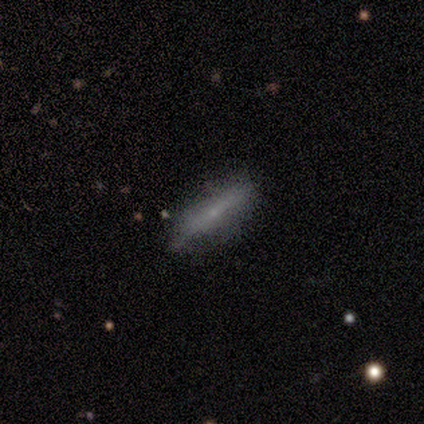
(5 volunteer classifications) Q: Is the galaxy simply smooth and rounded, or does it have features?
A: smooth — 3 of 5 (60%).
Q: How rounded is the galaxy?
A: cigar-shaped — 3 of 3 (100%).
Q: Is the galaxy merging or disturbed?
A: none — 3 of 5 (60%).